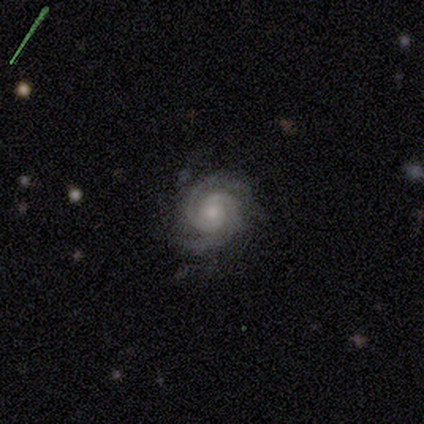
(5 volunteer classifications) Smooth or featured: featured or disk — 100%
Edge-on disk: no — 100%
Bar: no — 100%
Spiral arms: yes — 100%
Spiral winding: tight — 80% (medium — 20%)
Spiral arm count: 2 — 40% (3 — 20%)
Bulge size: small — 60% (moderate — 40%)
Merging: none — 80% (minor disturbance — 20%)